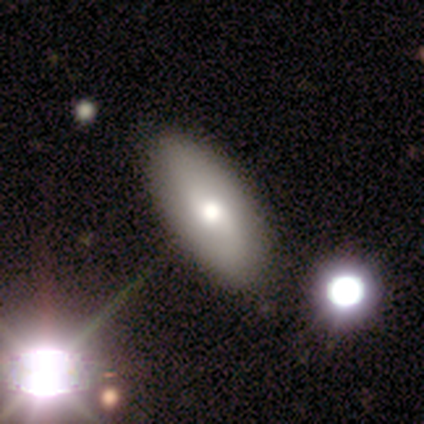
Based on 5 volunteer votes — smooth_or_featured: smooth (p=0.80) [alt: star or artifact p=0.20]
how_rounded: in between (p=1.00)
merging: none (p=1.00)